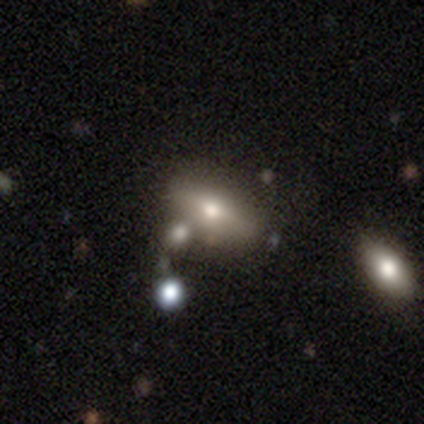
Smooth or featured? 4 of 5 (80%) said smooth. How rounded? 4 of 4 (100%) said in between. Merging? 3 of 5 (60%) said none.